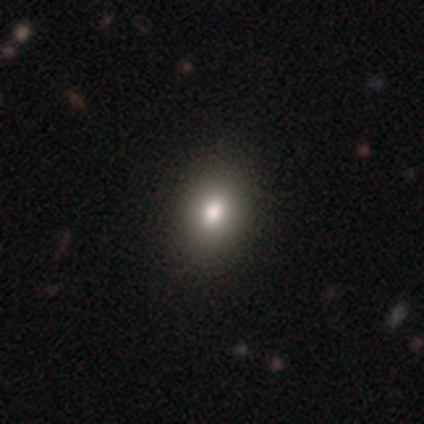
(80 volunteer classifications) smooth-or-featured: smooth: 81% | star or artifact: 14% | featured or disk: 5%
  how-rounded: in between: 71% | round: 28% | cigar-shaped: 2%
  merging: none: 45% | minor disturbance: 4% | merger: 1% | major disturbance: 0%